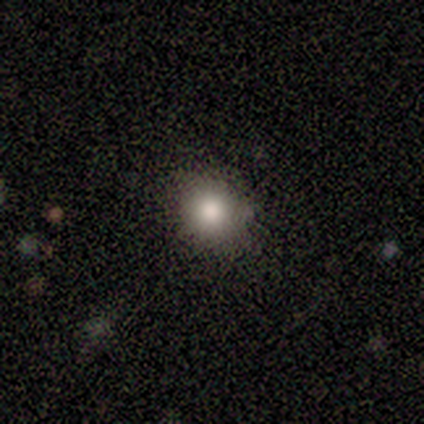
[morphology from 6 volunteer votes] type=smooth (83%); roundness=round (100%); merging=none (100%).